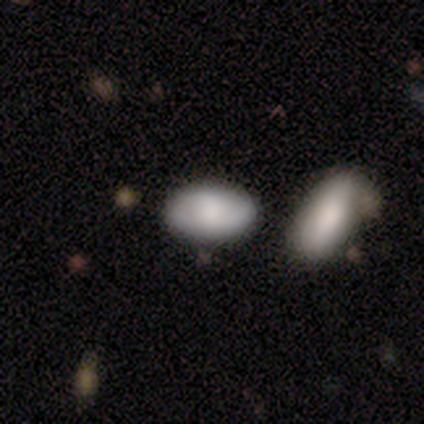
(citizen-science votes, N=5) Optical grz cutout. It shows a smooth galaxy with no disk features (80%) that is in between round and cigar-shaped (100%). Merging: none (80%).